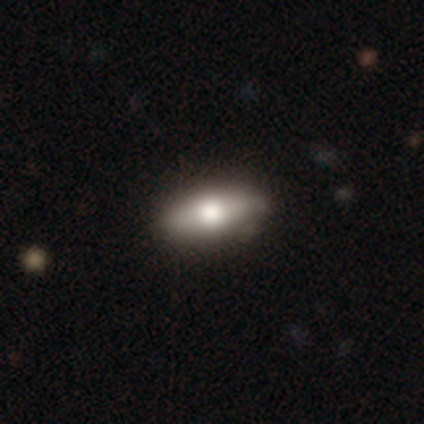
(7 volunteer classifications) smooth-or-featured: smooth: 71% | featured or disk: 14% | star or artifact: 14%
  how-rounded: in between: 80% | cigar-shaped: 20% | round: 0%
  merging: none: 83% | minor disturbance: 17% | major disturbance: 0% | merger: 0%